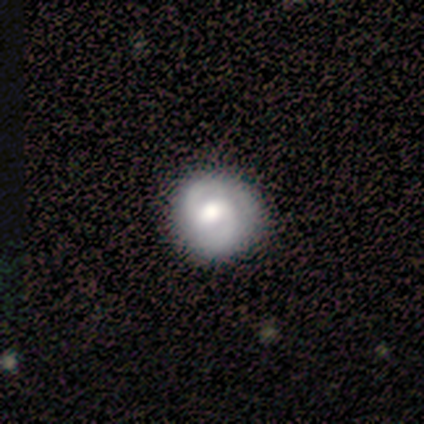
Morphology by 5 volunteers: Volunteers were most divided on "smooth or featured": smooth: 60%, featured or disk: 40%, star or artifact: 0%. More confident: how rounded — round (100%); merging — none (60%).